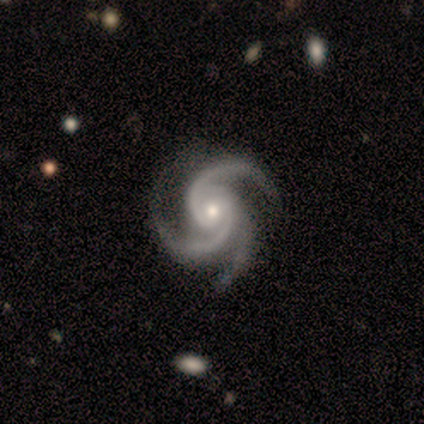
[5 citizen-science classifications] Overall: featured or disk (80%). Edge-on disk: no (100%). Bar: no (100%). Spiral arms: yes (100%). Spiral arm count: 3 (100%). Spiral winding: tight (100%). Bulge size: moderate (50%, tied with small). Merging: none (100%).